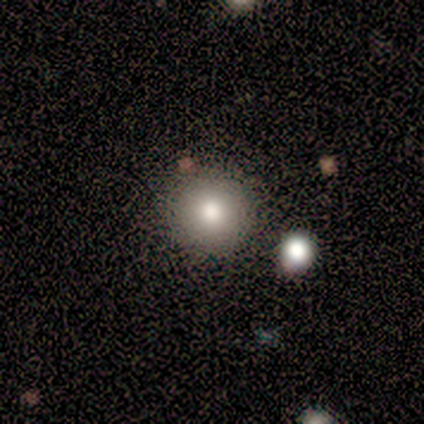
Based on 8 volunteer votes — Smooth or featured? 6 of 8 (75%) said smooth. How rounded? 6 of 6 (100%) said round. Merging? 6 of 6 (100%) said none.